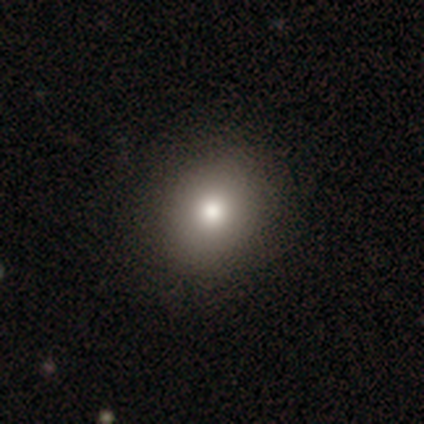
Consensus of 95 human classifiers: Volunteers were most divided on "how rounded": round: 72%, in between: 28%, cigar-shaped: 0%. More confident: merging — none (92%); smooth or featured — smooth (73%).